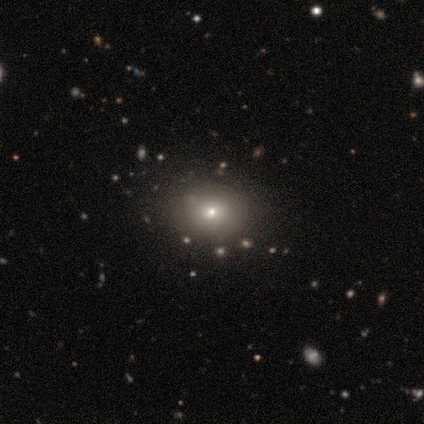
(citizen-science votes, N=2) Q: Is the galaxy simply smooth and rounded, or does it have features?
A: smooth — 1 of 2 (50%, tied with star or artifact).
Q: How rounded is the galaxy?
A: round — 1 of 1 (100%).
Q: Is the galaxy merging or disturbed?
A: minor disturbance — 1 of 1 (100%).